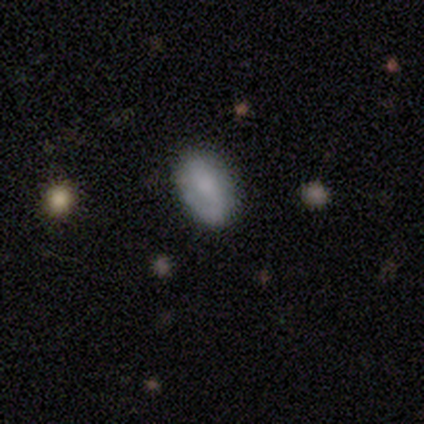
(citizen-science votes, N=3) Morphology: type=featured or disk (67%); edge-on=no (100%); bar=weak (100%); spiral arms=yes (100%); winding=tight (50%, tied with loose); arm count=1 (50%, tied with 2); bulge=small (100%); merging=minor disturbance (100%).